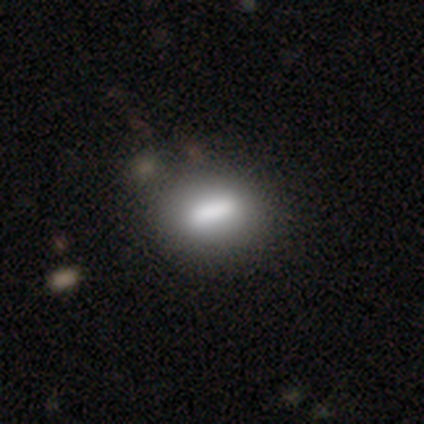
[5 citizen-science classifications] Overall: smooth (40%, tied with featured or disk). How rounded: in between (100%). Merging: none (75%).